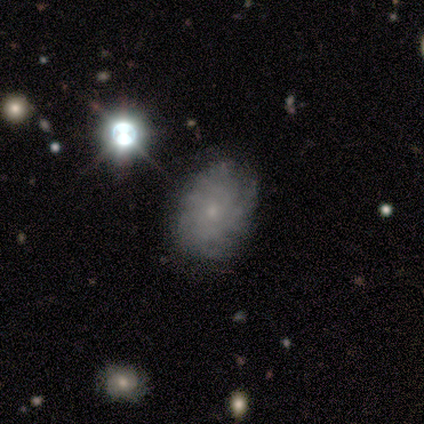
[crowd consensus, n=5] featured or disk 80%, smooth 20%, star or artifact 0%. Down the decision tree: edge-on disk — no (100%); bar — weak (50%, tied with no); spiral arms — yes (75%); spiral arm count — 2 (33%, tied with 4 and can't tell); spiral winding — tight (67%); bulge size — small (75%); merging — none (100%).